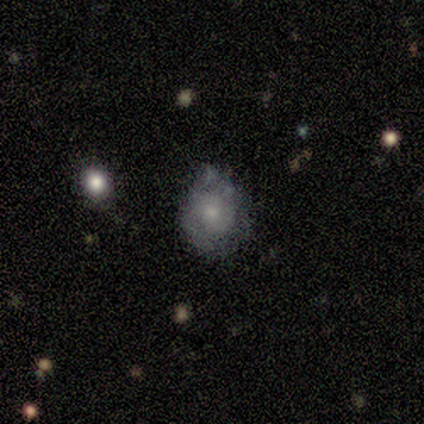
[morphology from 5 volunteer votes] This appears to be a smooth galaxy with no disk features (60%) that is round (67%). Merging: minor disturbance (60%).